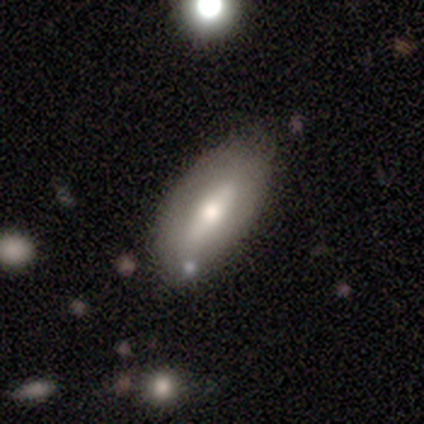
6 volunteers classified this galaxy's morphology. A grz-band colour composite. It shows a smooth galaxy with no disk features (83%) that is in between round and cigar-shaped (100%). Merging: none (50%).